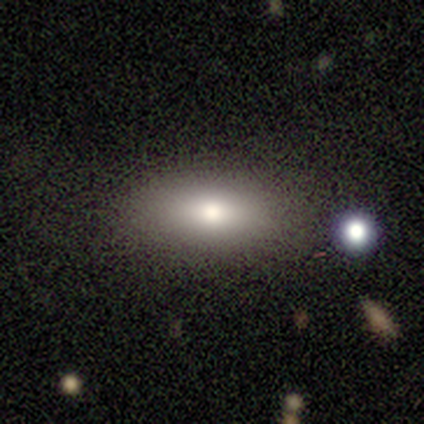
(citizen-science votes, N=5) This appears to be a smooth galaxy with no disk features (100%) that is in between round and cigar-shaped (100%). Merging: none (100%).